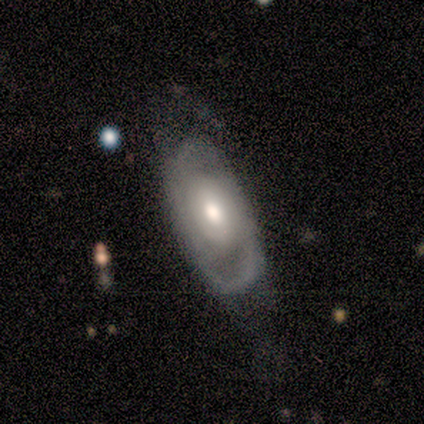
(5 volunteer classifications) Overall: featured or disk (60%; smooth 20%). Edge-on disk: no (100%). Bar: no (67%; strong 33%). Spiral arms: no (67%; yes 33%). Bulge size: moderate (100%). Merging: none (50%, tied with minor disturbance).